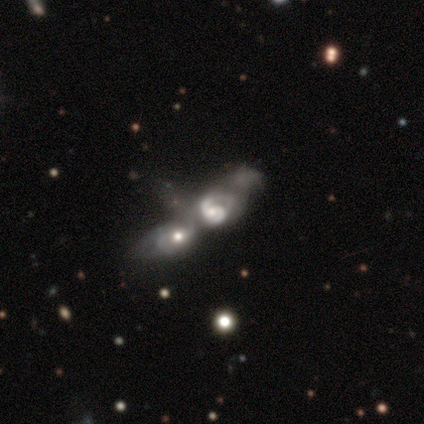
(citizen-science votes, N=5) Smooth or featured? featured or disk (80%)
Edge-on disk? no (100%)
Bar? weak (50%, tied with no)
Spiral arms? yes (50%, tied with no)
Spiral winding? loose (100%)
Spiral arm count? 1 (50%, tied with 2)
Bulge size? moderate (50%)
Merging? merger (80%)